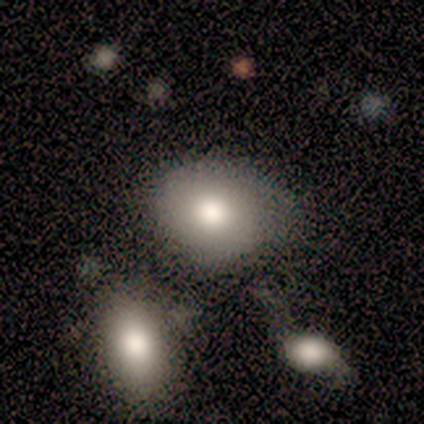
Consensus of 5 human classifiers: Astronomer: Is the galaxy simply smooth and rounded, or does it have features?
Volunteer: smooth — 80%.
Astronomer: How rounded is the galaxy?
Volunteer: round — 75%.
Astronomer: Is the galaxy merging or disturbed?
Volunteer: none — 80%.